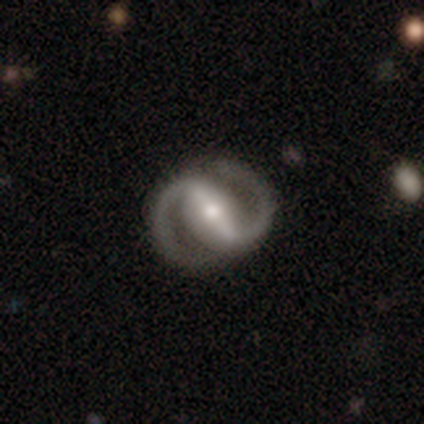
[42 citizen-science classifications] This is clearly a featured or disk galaxy (98%). It is clearly not viewed edge-on (95%). Bar: clearly strong (92%). Spiral arm pattern: clearly yes (95%). Spiral arm count: clearly 2 (100%). Spiral winding: likely medium (62%). Central bulge: likely moderate (62%). Merging: clearly none (88%).